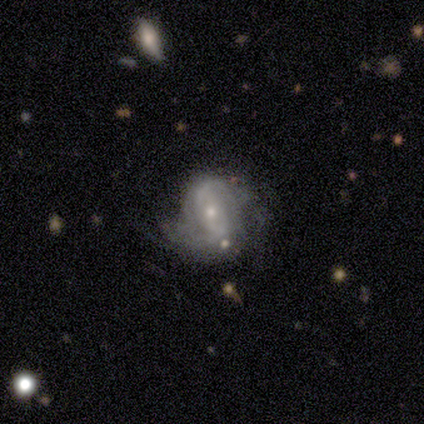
Smooth or featured? featured or disk (100%)
Edge-on disk? no (100%)
Bar? strong (57%)
Spiral arms? yes (86%)
Spiral winding? medium (50%)
Spiral arm count? 2 (50%)
Bulge size? small (71%)
Merging? minor disturbance (43%)